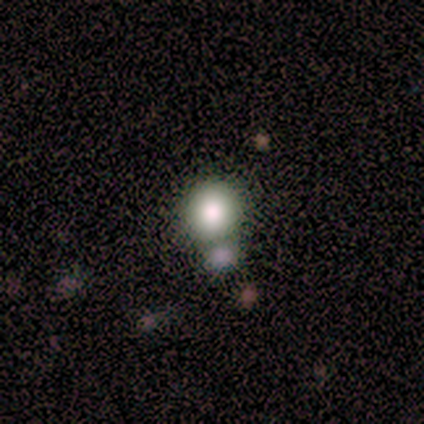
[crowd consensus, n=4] Smooth or featured?
  - smooth: 100% *
  - featured or disk: 0%
  - star or artifact: 0%
How rounded?
  - round: 100% *
  - in between: 0%
  - cigar-shaped: 0%
Merging?
  - none: 75% *
  - major disturbance: 25%
  - minor disturbance: 0%
  - merger: 0%